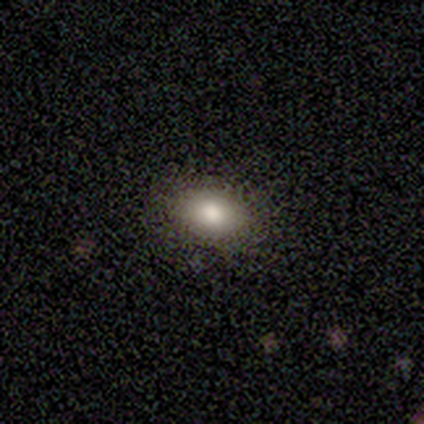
smooth_or_featured: smooth (p=0.80) [alt: star or artifact p=0.20]
how_rounded: round (p=0.50) [tied with: in between p=0.50]
merging: none (p=1.00)